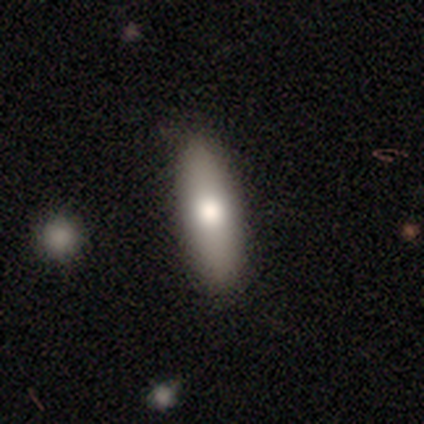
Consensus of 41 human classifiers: Morphology: type=smooth (68%); roundness=in between (54%); merging=none (88%).